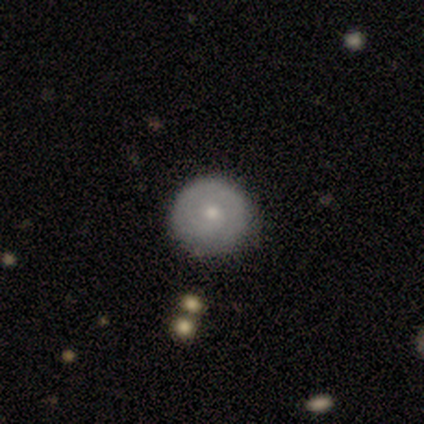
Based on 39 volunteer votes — Smooth or featured? 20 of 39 (51%) said featured or disk. Edge-on disk? 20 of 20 (100%) said no. Bar? 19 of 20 (95%) said no. Spiral arms? 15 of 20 (75%) said yes. Spiral winding? 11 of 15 (73%) said tight. Spiral arm count? 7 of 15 (47%) said 1. Bulge size? 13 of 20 (65%) said moderate. Merging? 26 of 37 (70%) said none.